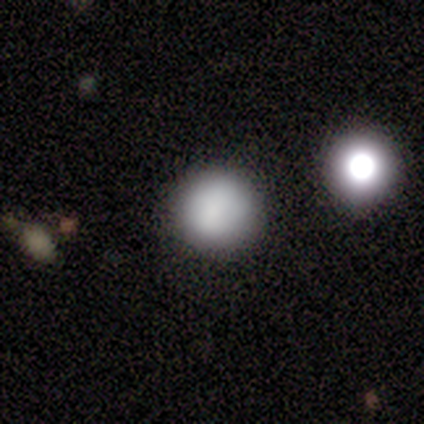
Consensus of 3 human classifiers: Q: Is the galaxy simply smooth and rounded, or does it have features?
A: smooth — 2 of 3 (67%).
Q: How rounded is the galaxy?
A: round — 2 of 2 (100%).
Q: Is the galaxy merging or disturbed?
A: none — 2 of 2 (100%).